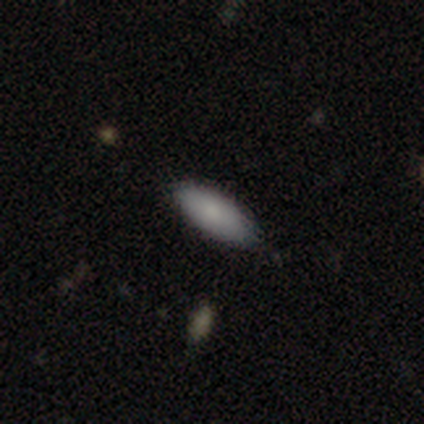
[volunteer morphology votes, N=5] Volunteers were most divided on "smooth or featured": smooth: 80%, star or artifact: 20%, featured or disk: 0%. More confident: how rounded — in between (100%); merging — none (100%).